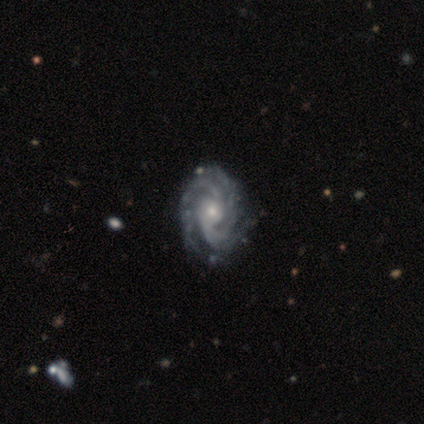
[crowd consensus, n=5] This is clearly a featured or disk galaxy (100%). It is clearly not viewed edge-on (80%). Bar: likely no (75%). Spiral arm pattern: clearly yes (100%). Spiral arm count: possibly 4 (50%). Spiral winding: clearly tight (100%). Central bulge: possibly moderate (50%, tied with small). Merging: clearly none (100%).